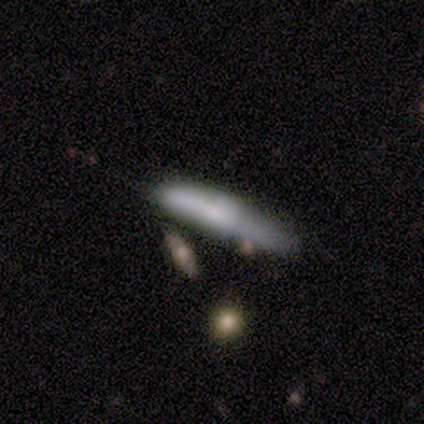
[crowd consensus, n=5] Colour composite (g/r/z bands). It shows a smooth galaxy with no disk features (60%) that is cigar-shaped (67%). Merging: merger (40%).